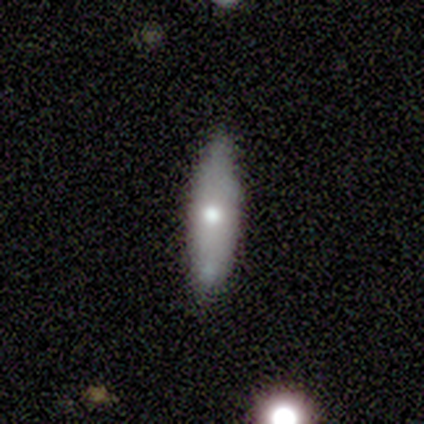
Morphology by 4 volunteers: Overall: featured or disk (75%). Edge-on disk: yes (100%). Edge-on bulge: rounded (100%). Merging: none (75%).